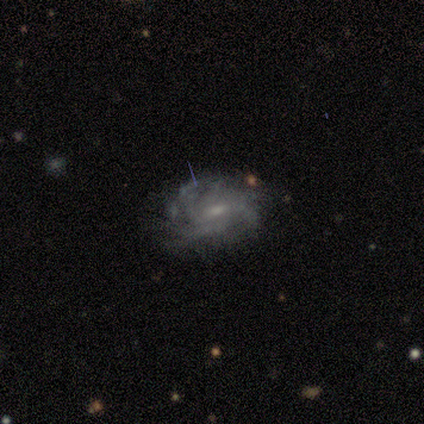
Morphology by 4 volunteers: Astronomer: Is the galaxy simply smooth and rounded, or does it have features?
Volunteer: featured or disk — 100%.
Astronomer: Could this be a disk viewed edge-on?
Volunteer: no — 100%.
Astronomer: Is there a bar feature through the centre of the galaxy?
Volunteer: weak — 75%.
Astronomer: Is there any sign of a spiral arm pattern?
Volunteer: yes — 100%.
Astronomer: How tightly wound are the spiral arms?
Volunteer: tight — 50%, tied with medium at 50%.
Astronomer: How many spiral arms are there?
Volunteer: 1 — 25%, tied with 3, 4 and more than 4 at 25%.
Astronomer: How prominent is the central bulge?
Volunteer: moderate — 50%.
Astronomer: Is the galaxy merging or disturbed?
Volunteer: minor disturbance — 75%.